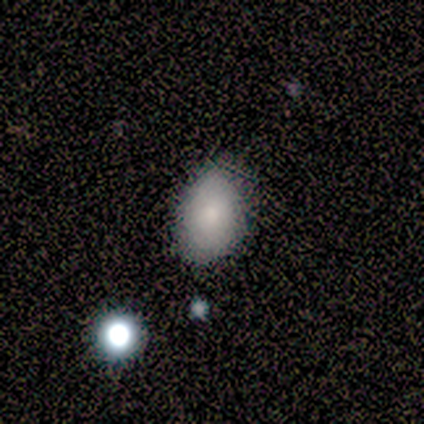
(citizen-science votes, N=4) smooth 100%, featured or disk 0%, star or artifact 0%. Down the decision tree: how rounded — in between (100%); merging — none (50%, tied with minor disturbance).